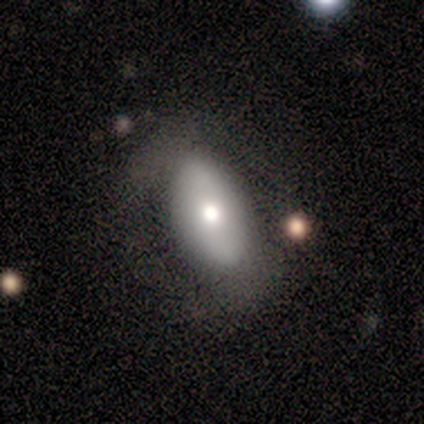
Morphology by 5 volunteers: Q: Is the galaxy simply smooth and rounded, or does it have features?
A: smooth — 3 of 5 (60%).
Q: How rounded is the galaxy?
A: in between — 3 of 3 (100%).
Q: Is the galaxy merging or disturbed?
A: none — 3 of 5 (60%).